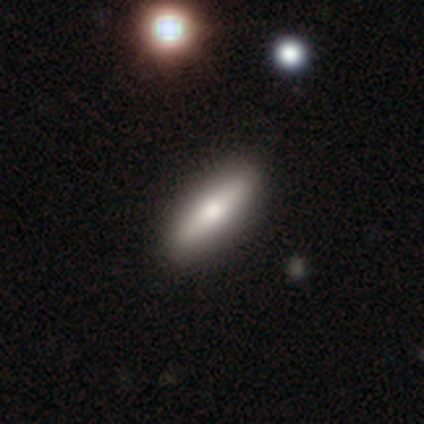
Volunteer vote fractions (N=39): Q: Smooth or featured?
A: smooth (62%); runner-up: featured or disk (36%)
Q: How rounded?
A: cigar-shaped (62%); runner-up: in between (38%)
Q: Merging?
A: none (66%); runner-up: minor disturbance (5%)